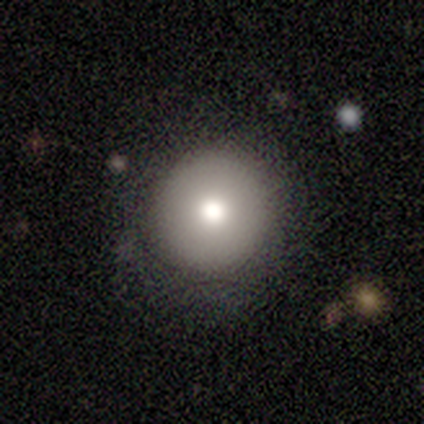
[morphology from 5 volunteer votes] This is clearly a smooth galaxy (80%). How rounded: clearly round (100%). Merging: clearly none (80%).